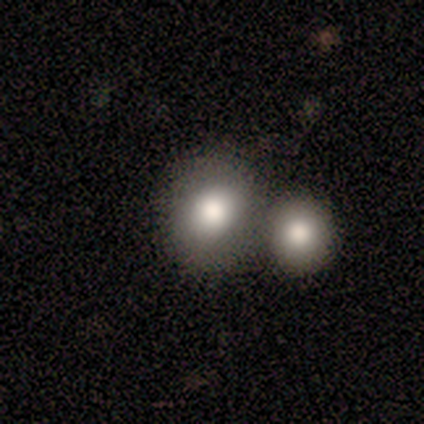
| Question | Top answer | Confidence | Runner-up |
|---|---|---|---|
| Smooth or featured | smooth | 100% | — |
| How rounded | round | 80% | in between (20%) |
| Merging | none | 40% | tied: merger (40%) |